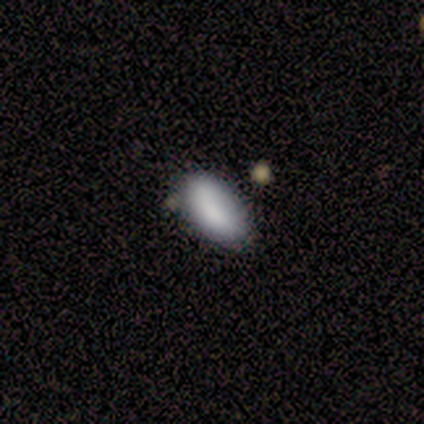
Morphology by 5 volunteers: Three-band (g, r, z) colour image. It shows a smooth galaxy with no disk features (80%) that is in between round and cigar-shaped (75%). Merging: none (50%).